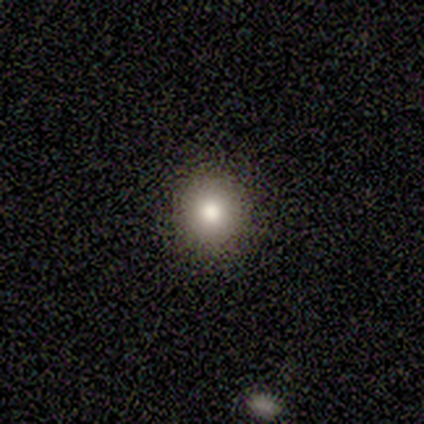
A smooth galaxy with no disk features (33%, tied with featured or disk and star or artifact) that is round (100%).

Vote fractions:
- Smooth or featured? smooth: 33% (tied) / featured or disk: 33% (tied) / star or artifact: 33% (tied)
- How rounded? round: 100% / in between: 0% / cigar-shaped: 0%
- Merging? none: 100% / minor disturbance: 0% / major disturbance: 0% / merger: 0%